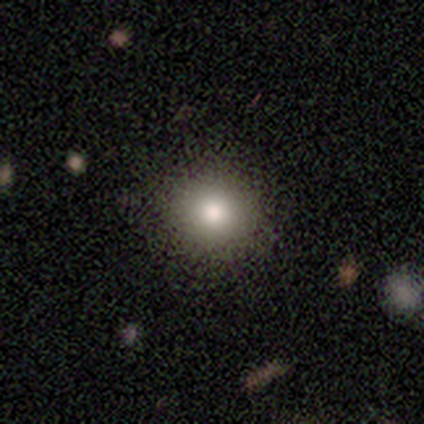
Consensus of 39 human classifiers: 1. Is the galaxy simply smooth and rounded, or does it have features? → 79% smooth, 10% featured or disk, 10% star or artifact.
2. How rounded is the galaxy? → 84% round, 16% in between, 0% cigar-shaped.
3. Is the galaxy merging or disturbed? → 83% none, 14% minor disturbance, 3% merger, 0% major disturbance.